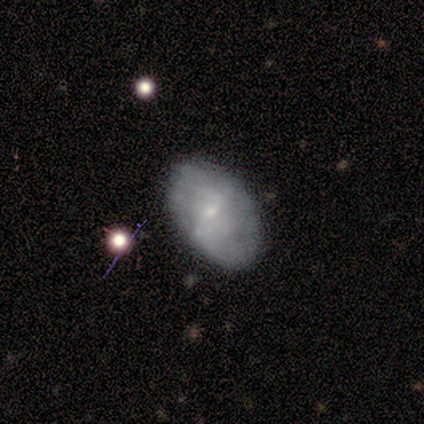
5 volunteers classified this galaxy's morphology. smooth-or-featured: smooth: 100% | featured or disk: 0% | star or artifact: 0%
  how-rounded: in between: 80% | round: 20% | cigar-shaped: 0%
  merging: none: 80% | minor disturbance: 20% | major disturbance: 0% | merger: 0%